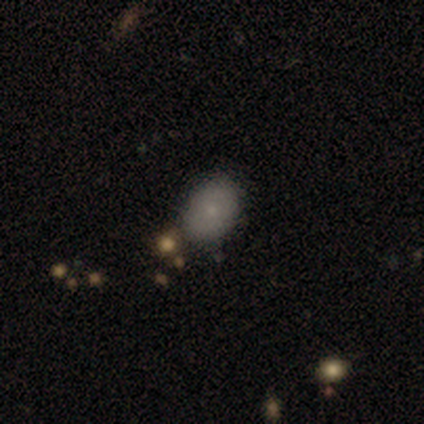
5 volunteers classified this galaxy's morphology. Q: Smooth or featured?
A: smooth (100%)
Q: How rounded?
A: in between (60%); runner-up: round (40%)
Q: Merging?
A: none (80%); runner-up: minor disturbance (20%)